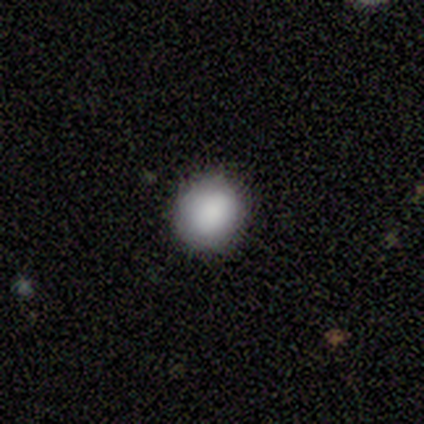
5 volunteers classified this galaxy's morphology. Smooth or featured? 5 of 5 (100%) said smooth. How rounded? 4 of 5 (80%) said round. Merging? 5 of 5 (100%) said none.